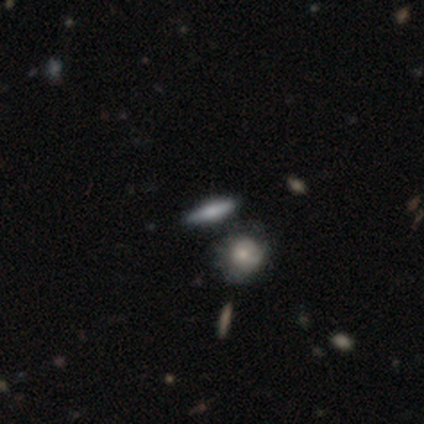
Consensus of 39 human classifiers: Smooth or featured? 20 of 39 (51%) said smooth. How rounded? 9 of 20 (45%) said cigar-shaped. Merging? 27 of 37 (73%) said none.